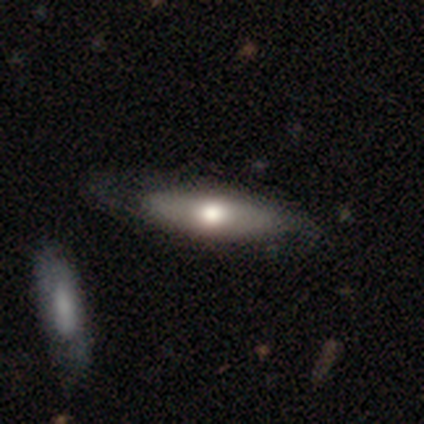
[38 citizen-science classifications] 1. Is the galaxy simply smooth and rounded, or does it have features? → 45% featured or disk, 42% smooth, 13% star or artifact.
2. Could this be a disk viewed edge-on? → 65% yes, 35% no.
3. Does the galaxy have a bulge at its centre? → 91% rounded, 9% boxy, 0% none.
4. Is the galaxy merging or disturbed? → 33% none (tied), 33% minor disturbance (tied), 6% merger, 3% major disturbance.